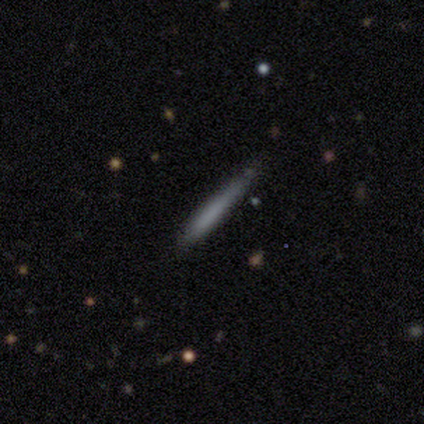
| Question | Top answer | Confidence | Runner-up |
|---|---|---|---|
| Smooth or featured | smooth | 67% | featured or disk (23%) |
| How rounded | cigar-shaped | 97% | in between (3%) |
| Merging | none | 72% | minor disturbance (26%) |